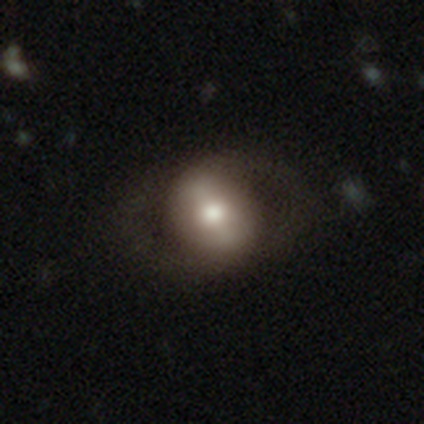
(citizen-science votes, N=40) A featured or disk galaxy (52%) with a strong bar (37%), no spiral arms (53%) and a moderate central bulge (63%). Merging: none (64%).